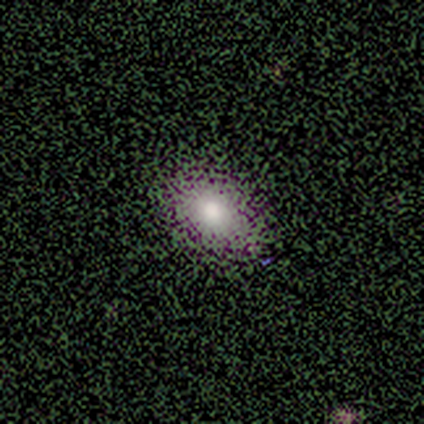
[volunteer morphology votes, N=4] smooth_or_featured: smooth (p=1.00)
how_rounded: round (p=1.00)
merging: none (p=1.00)